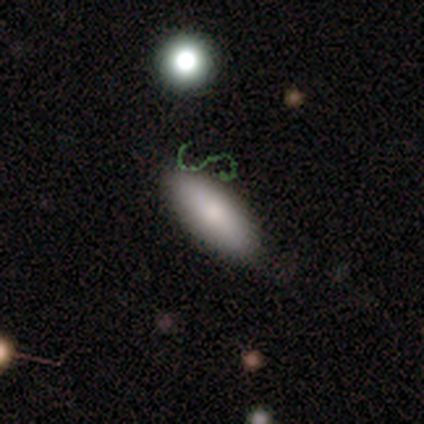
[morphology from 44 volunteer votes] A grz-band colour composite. It shows a smooth galaxy with no disk features (86%) that is in between round and cigar-shaped (76%). Merging: none (78%).